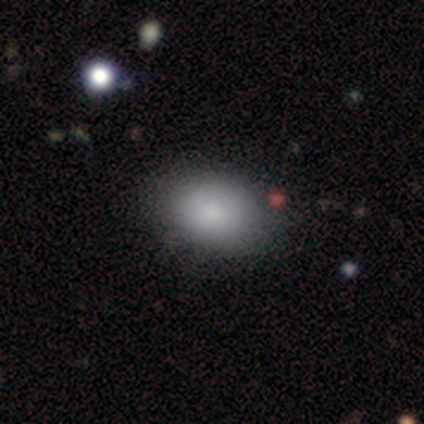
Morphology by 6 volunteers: Smooth or featured: smooth — 83% (featured or disk — 17%)
How rounded: in between — 80% (round — 20%)
Merging: none — 83% (minor disturbance — 17%)